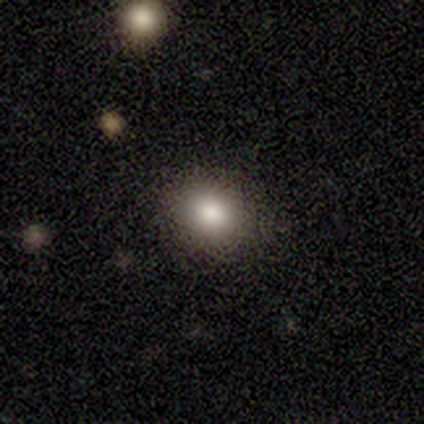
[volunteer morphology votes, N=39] Overall: smooth (82%). How rounded: round (69%; in between 31%). Merging: none (94%).